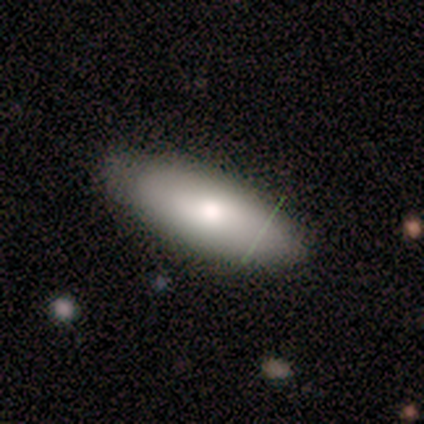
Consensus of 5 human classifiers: This is clearly a smooth galaxy (100%). How rounded: clearly in between (80%). Merging: likely none (60%).